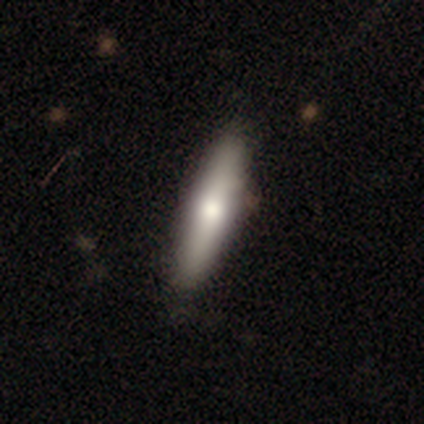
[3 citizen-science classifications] featured or disk 67%, smooth 33%, star or artifact 0%. Down the decision tree: edge-on disk — yes (100%); edge-on bulge — rounded (100%); merging — none (100%).